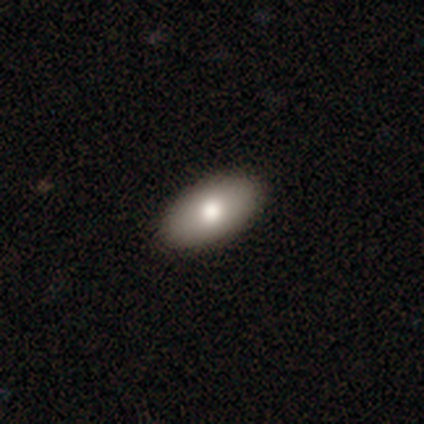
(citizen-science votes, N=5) A smooth galaxy with no disk features (100%) that is in between round and cigar-shaped (80%). Merging: none (40%, tied with minor disturbance).